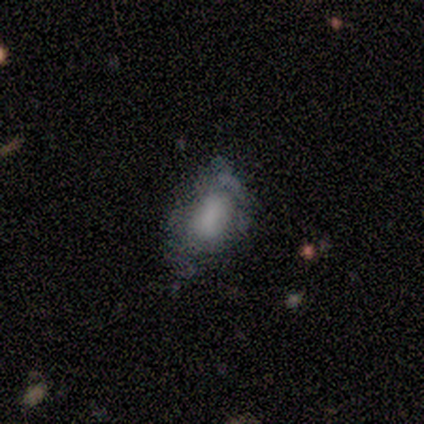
smooth-or-featured: smooth: 60% | featured or disk: 40% | star or artifact: 0%
  how-rounded: in between: 100% | round: 0% | cigar-shaped: 0%
  merging: none: 40% (tied) | major disturbance: 40% (tied) | minor disturbance: 20% | merger: 0%